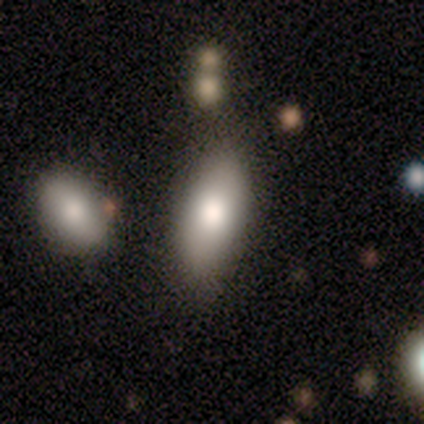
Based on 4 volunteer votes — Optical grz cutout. It shows a smooth galaxy with no disk features (100%) that is in between round and cigar-shaped (75%). Merging: none (50%).